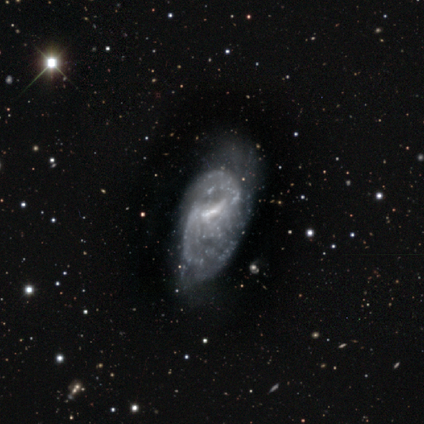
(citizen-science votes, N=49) A featured or disk galaxy (90%) with a weak bar (55%), 2 (52%) medium (45%) spiral arms (69%) and no central bulge (43%).

Vote fractions:
- Smooth or featured? featured or disk: 90% / smooth: 6% / star or artifact: 4%
- Edge-on disk? no: 95% / yes: 5%
- Bar? weak: 55% / strong: 24% / no: 21%
- Spiral arms? yes: 69% / no: 31%
- Spiral winding? medium: 45% / loose: 34% / tight: 21%
- Spiral arm count? 2: 52% / can't tell: 41% / 3: 7% / 1: 0% / 4: 0% / more than 4: 0%
- Bulge size? none: 43% / small: 40% / moderate: 17% / dominant: 0% / large: 0%
- Merging? minor disturbance: 38% (tied) / major disturbance: 38% (tied) / none: 23% / merger: 0%